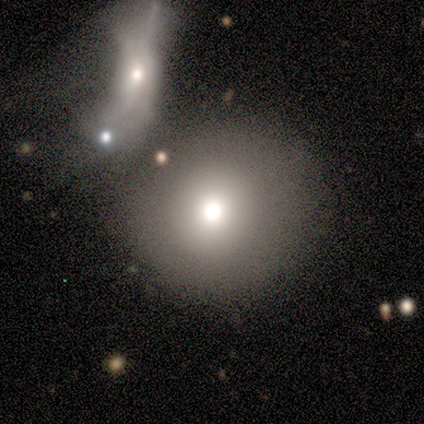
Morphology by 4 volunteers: Smooth or featured? 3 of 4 (75%) said smooth. How rounded? 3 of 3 (100%) said round. Merging? 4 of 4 (100%) said minor disturbance.